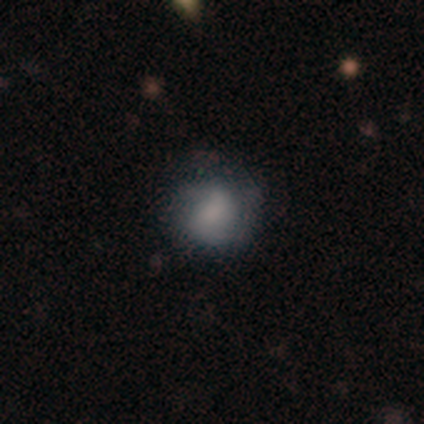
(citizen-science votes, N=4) Smooth or featured?
  - smooth: 75% *
  - featured or disk: 25%
  - star or artifact: 0%
How rounded?
  - round: 67% *
  - in between: 33%
  - cigar-shaped: 0%
Merging?
  - none: 75% *
  - major disturbance: 25%
  - minor disturbance: 0%
  - merger: 0%